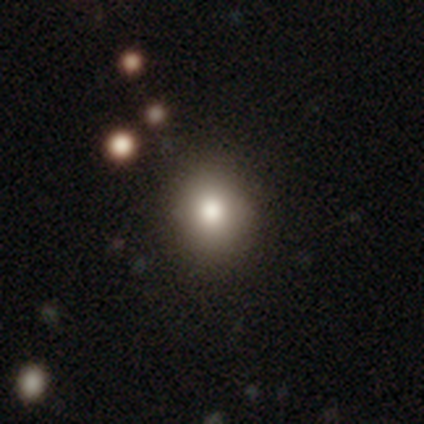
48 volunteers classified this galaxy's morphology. smooth_or_featured: smooth (p=0.85) [alt: featured or disk p=0.08]
how_rounded: round (p=0.90) [alt: in between p=0.10]
merging: none (p=0.50) [alt: minor disturbance p=0.07]